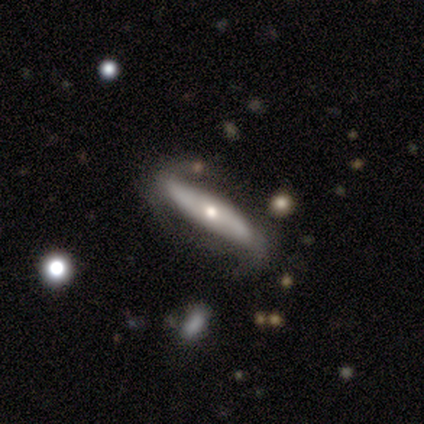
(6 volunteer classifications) Smooth or featured? 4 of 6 (67%) said featured or disk. Edge-on disk? 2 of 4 (50%, tied with no) said yes. Edge-on bulge? 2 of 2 (100%) said rounded. Merging? 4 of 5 (80%) said none.